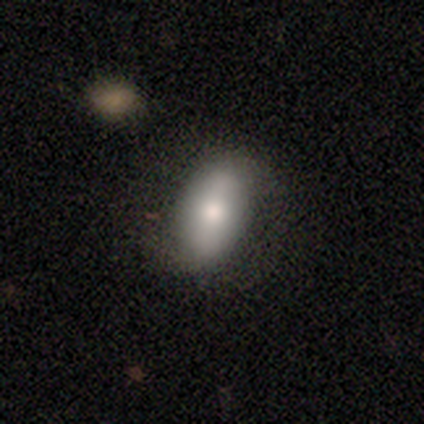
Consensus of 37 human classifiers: Smooth or featured? smooth (62%)
How rounded? in between (96%)
Merging? none (77%)